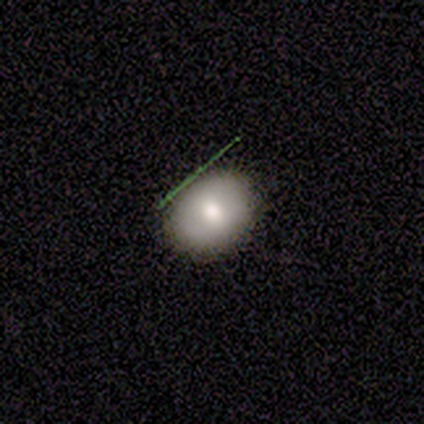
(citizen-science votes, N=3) Overall: smooth (100%). How rounded: round (67%; in between 33%). Merging: none (67%; minor disturbance 33%).